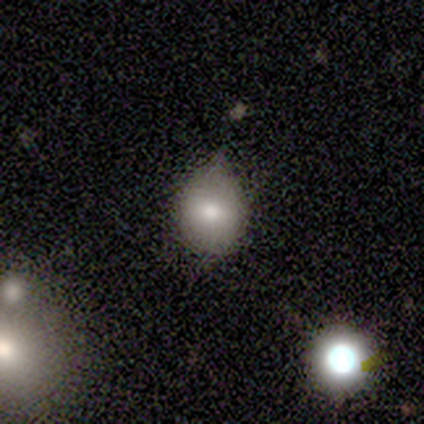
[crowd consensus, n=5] Smooth or featured? 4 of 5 (80%) said smooth. How rounded? 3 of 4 (75%) said round. Merging? 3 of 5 (60%) said minor disturbance.